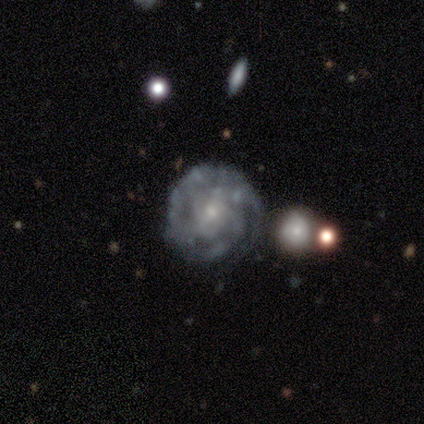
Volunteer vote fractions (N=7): smooth_or_featured: featured or disk (p=0.86) [alt: smooth p=0.14]
disk_edge_on: no (p=1.00)
bar: no (p=0.83) [alt: weak p=0.17]
has_spiral_arms: yes (p=1.00)
spiral_winding: tight (p=0.83) [alt: loose p=0.17]
spiral_arm_count: 3 (p=0.33) [tied with: 4 p=0.33]
bulge_size: small (p=1.00)
merging: none (p=0.86) [alt: major disturbance p=0.14]